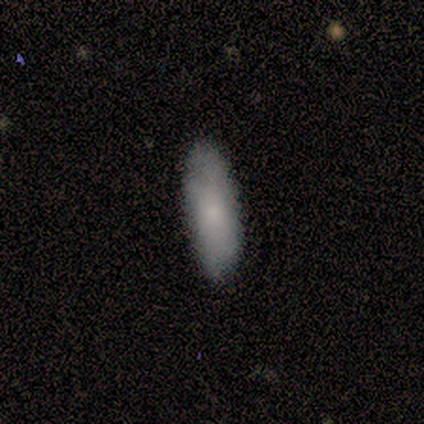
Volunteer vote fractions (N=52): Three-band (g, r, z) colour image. It shows a smooth galaxy with no disk features (71%) that is in between round and cigar-shaped (76%). Merging: none (88%).